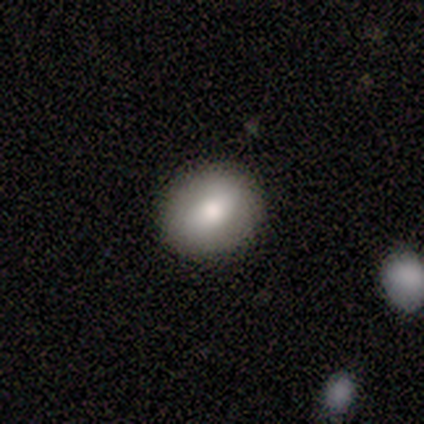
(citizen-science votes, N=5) Smooth or featured? 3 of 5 (60%) said smooth. How rounded? 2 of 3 (67%) said round. Merging? 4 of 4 (100%) said none.